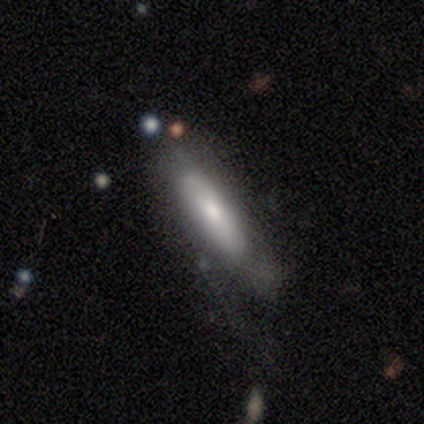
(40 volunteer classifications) Smooth or featured? smooth (60%)
How rounded? cigar-shaped (67%)
Merging? none (54%)